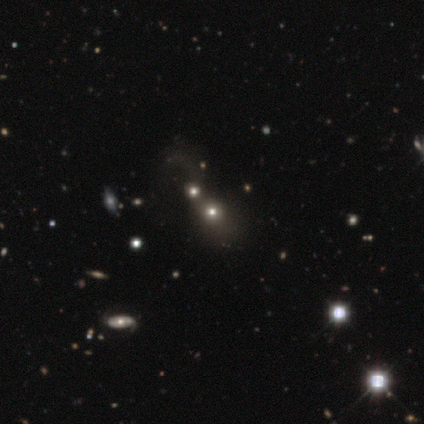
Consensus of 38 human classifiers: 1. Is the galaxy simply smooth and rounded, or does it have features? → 50% smooth, 39% star or artifact, 11% featured or disk.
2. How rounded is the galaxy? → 74% round, 26% in between, 0% cigar-shaped.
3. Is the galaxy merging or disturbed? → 61% merger, 13% none, 9% minor disturbance, 4% major disturbance.